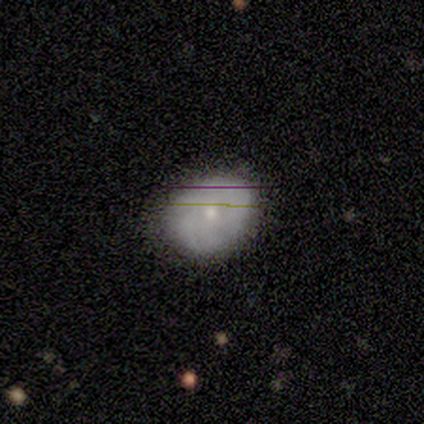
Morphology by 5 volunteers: This is clearly a smooth galaxy (80%). How rounded: possibly round (50%, tied with in between). Merging: likely none (60%).